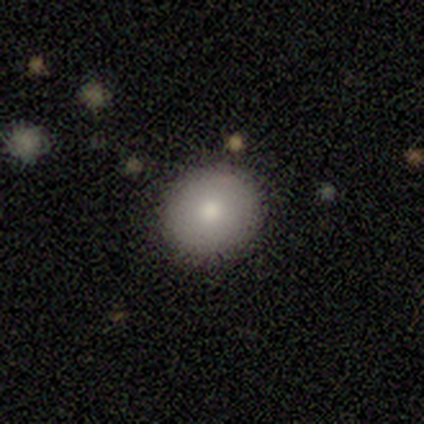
Morphology: type=smooth (72%); roundness=round (76%); merging=none (91%).